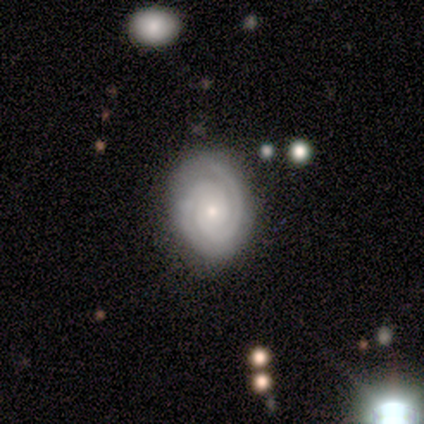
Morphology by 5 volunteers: type=featured or disk (100%); edge-on=no (100%); bar=no (80%); spiral arms=yes (100%); winding=tight (100%); arm count=2 (80%); bulge=small (80%); merging=none (100%).